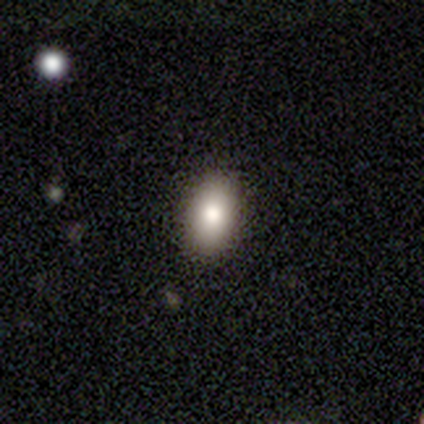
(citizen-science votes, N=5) Overall: smooth (80%). How rounded: in between (75%). Merging: none (100%).